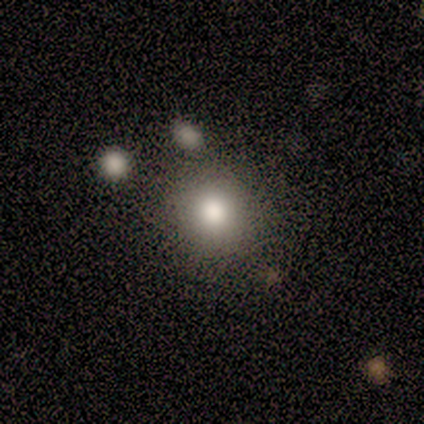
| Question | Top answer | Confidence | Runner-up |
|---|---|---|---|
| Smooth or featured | smooth | 80% | featured or disk (20%) |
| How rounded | round | 100% | — |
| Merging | none | 60% | minor disturbance (20%) |